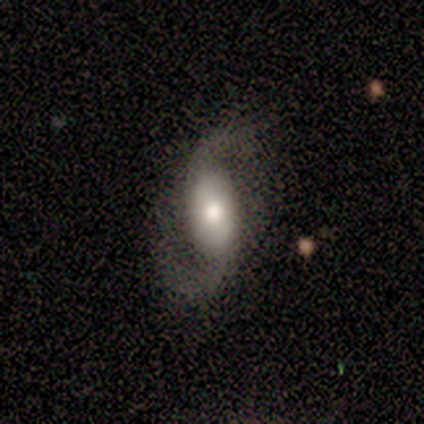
Volunteers were most divided on "spiral winding": loose: 67%, medium: 33%, tight: 0%. More confident: edge-on disk — no (100%); bar — no (100%); spiral arms — yes (100%); spiral arm count — 2 (100%); bulge size — moderate (100%); merging — none (100%); smooth or featured — featured or disk (75%).